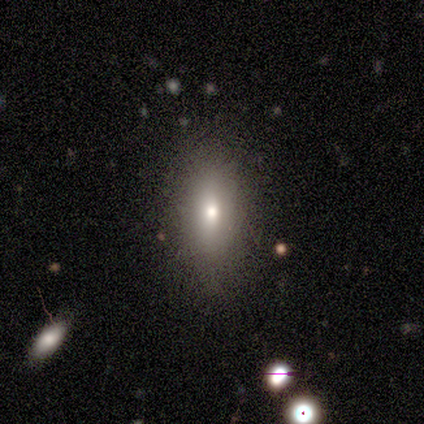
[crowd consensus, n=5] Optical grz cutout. It shows a smooth galaxy with no disk features (60%) that is in between round and cigar-shaped (100%). Merging: none (75%).